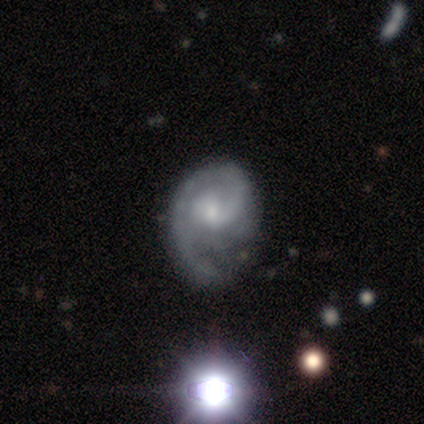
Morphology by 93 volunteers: This appears to be a featured or disk galaxy (86%) with no bar (54%), 1 (64%) tight (51%) spiral arms (92%) and a small central bulge (60%). Merging: none (58%).